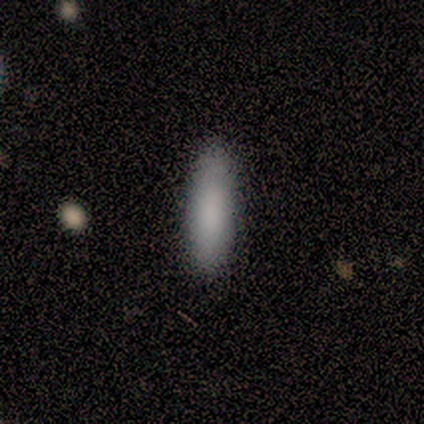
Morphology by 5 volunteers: A smooth galaxy with no disk features (100%) that is cigar-shaped (80%).

Vote fractions:
- Smooth or featured? smooth: 100% / featured or disk: 0% / star or artifact: 0%
- How rounded? cigar-shaped: 80% / in between: 20% / round: 0%
- Merging? none: 80% / minor disturbance: 20% / major disturbance: 0% / merger: 0%